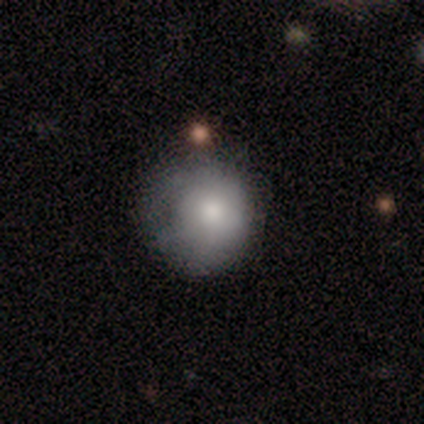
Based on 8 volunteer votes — Overall: smooth (88%). How rounded: round (86%). Merging: none (43%; major disturbance 29%).